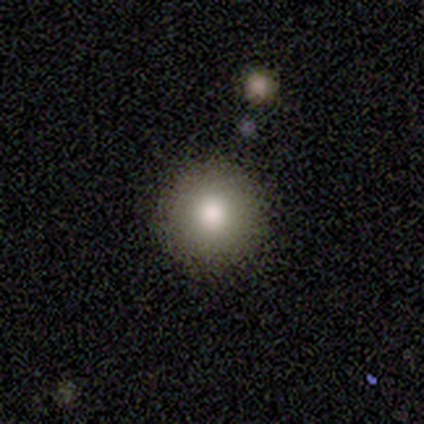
Overall: smooth (75%). How rounded: round (100%). Merging: none (50%, tied with minor disturbance).